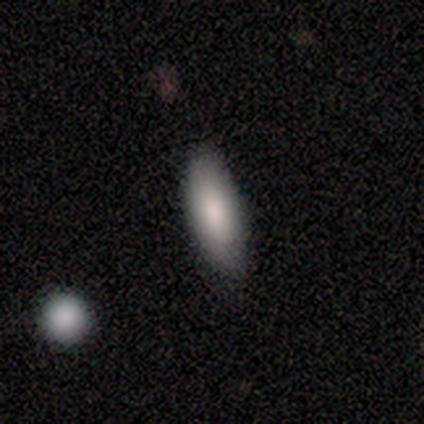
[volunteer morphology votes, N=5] Overall: smooth (100%). How rounded: in between (100%). Merging: none (80%).